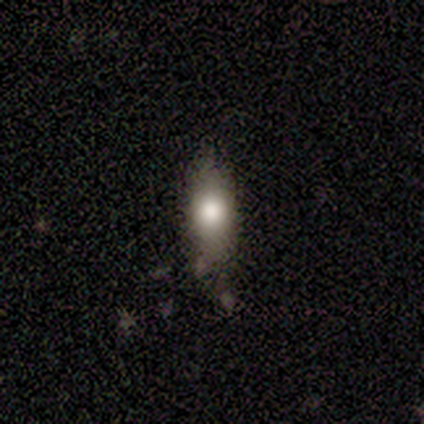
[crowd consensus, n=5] Q: Smooth or featured?
A: smooth (60%); runner-up: featured or disk (20%)
Q: How rounded?
A: in between (67%); runner-up: cigar-shaped (33%)
Q: Merging?
A: none (50%); runner-up: minor disturbance (25%)